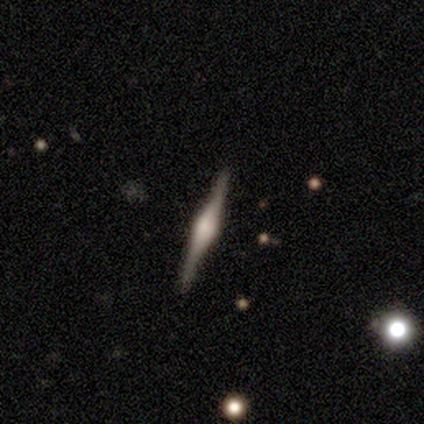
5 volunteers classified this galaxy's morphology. Smooth or featured? featured or disk (100%)
Edge-on disk? yes (100%)
Edge-on bulge? rounded (80%)
Merging? none (60%)